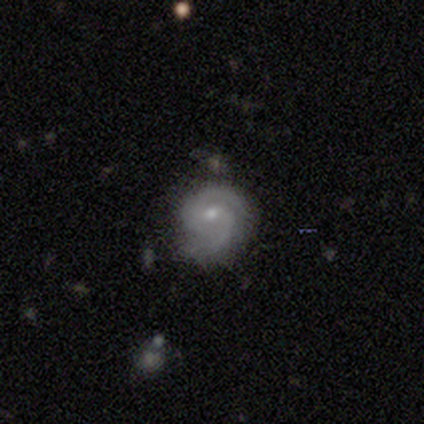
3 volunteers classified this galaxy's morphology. Overall: featured or disk (100%). Edge-on disk: no (100%). Bar: no (67%; weak 33%). Spiral arms: yes (100%). Spiral arm count: 2 (100%). Spiral winding: tight (67%; medium 33%). Bulge size: small (67%; moderate 33%). Merging: none (100%).